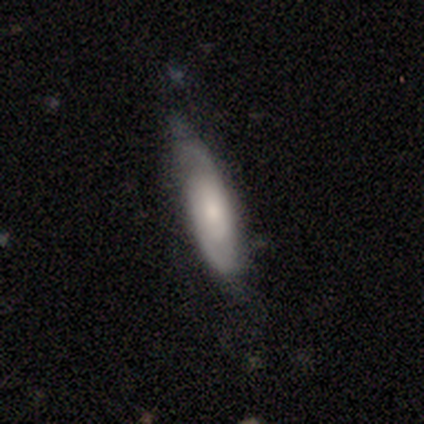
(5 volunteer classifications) This is likely a smooth galaxy (60%). How rounded: likely cigar-shaped (67%). Merging: clearly none (100%).